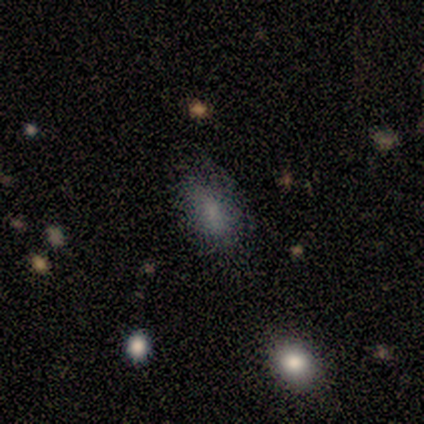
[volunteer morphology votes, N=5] A smooth galaxy with no disk features (80%) that is in between round and cigar-shaped (100%).

Vote fractions:
- Smooth or featured? smooth: 80% / star or artifact: 20% / featured or disk: 0%
- How rounded? in between: 100% / round: 0% / cigar-shaped: 0%
- Merging? none: 100% / minor disturbance: 0% / major disturbance: 0% / merger: 0%